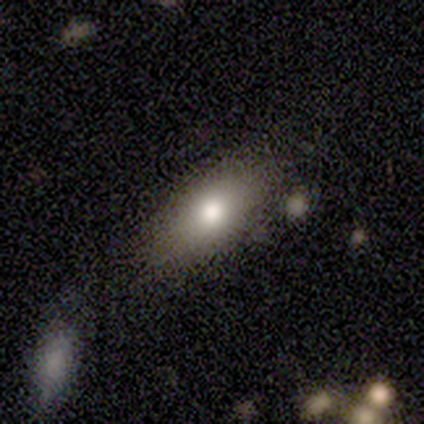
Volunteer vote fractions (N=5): Smooth or featured? smooth (100%)
How rounded? in between (100%)
Merging? none (100%)